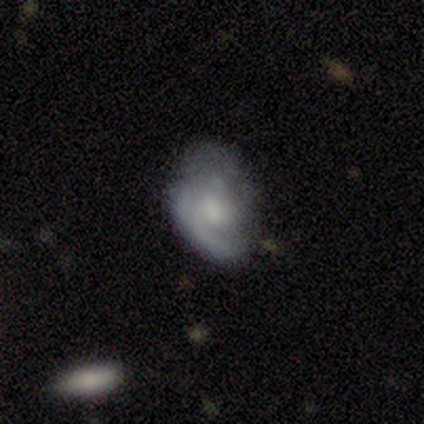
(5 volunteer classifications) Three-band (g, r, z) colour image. It shows a smooth galaxy with no disk features (80%) that is in between round and cigar-shaped (75%). Merging: none (40%, tied with minor disturbance).